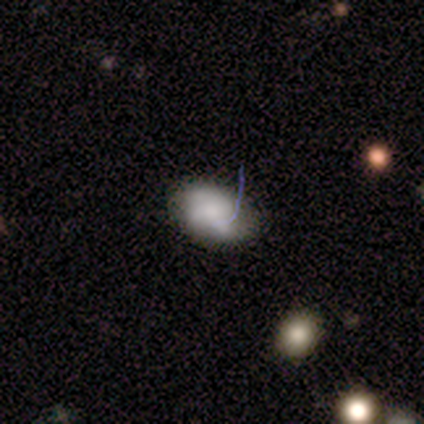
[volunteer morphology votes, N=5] Smooth or featured: smooth — 80% (featured or disk — 20%)
How rounded: in between — 100%
Merging: none — 80% (minor disturbance — 20%)